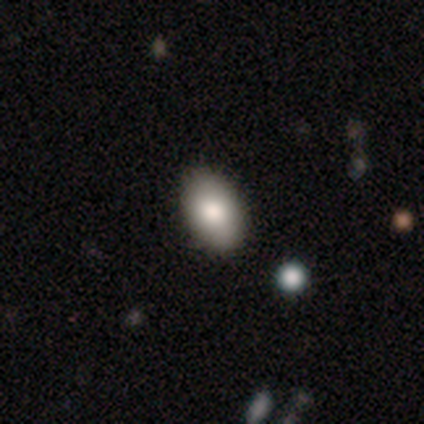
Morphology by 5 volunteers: Overall: smooth (100%). How rounded: in between (80%). Merging: none (60%; minor disturbance 40%).